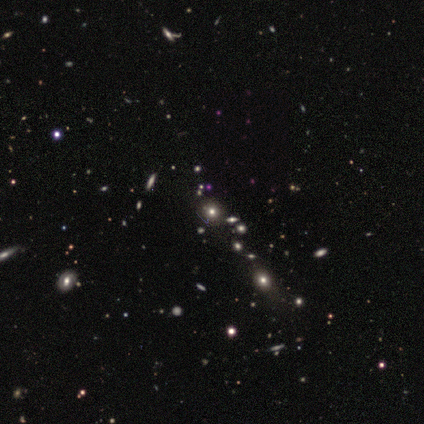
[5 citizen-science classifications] A smooth galaxy with no disk features (60%) that is round (100%).

Vote fractions:
- Smooth or featured? smooth: 60% / star or artifact: 40% / featured or disk: 0%
- How rounded? round: 100% / in between: 0% / cigar-shaped: 0%
- Merging? none: 100% / minor disturbance: 0% / major disturbance: 0% / merger: 0%